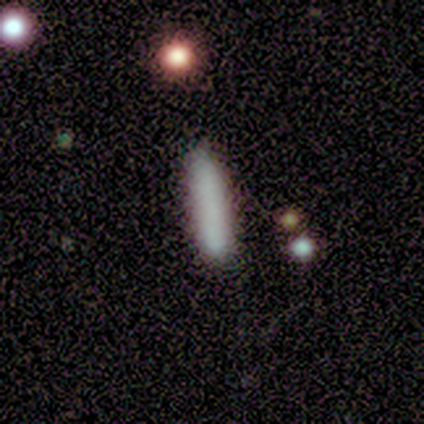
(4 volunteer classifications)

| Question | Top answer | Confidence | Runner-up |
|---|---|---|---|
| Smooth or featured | smooth | 100% | — |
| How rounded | cigar-shaped | 100% | — |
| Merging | none | 100% | — |